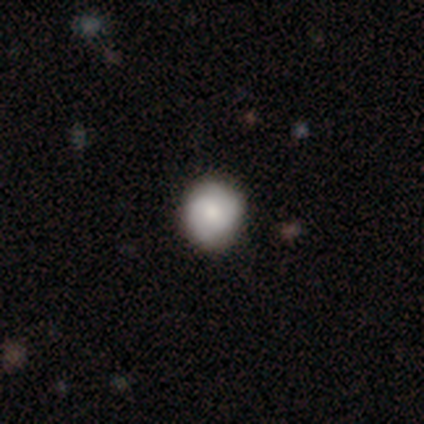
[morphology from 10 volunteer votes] This appears to be a smooth galaxy with no disk features (50%, tied with featured or disk) that is round (100%). Merging: none (60%).